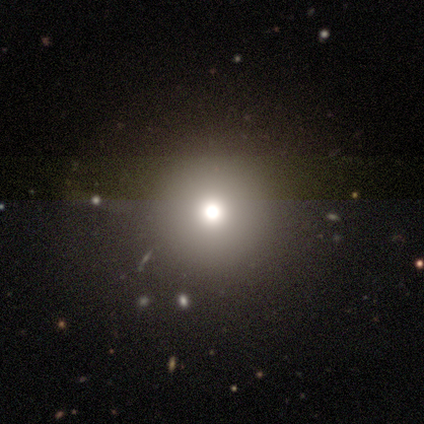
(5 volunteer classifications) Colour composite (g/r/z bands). It shows a smooth galaxy with no disk features (80%) that is round (100%). Merging: none (100%).